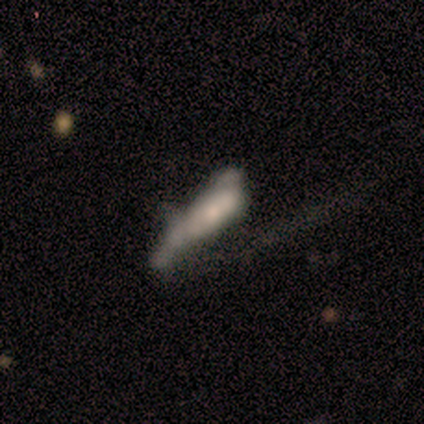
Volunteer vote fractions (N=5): Morphology: type=smooth (60%); roundness=in between (67%); merging=major disturbance (60%).